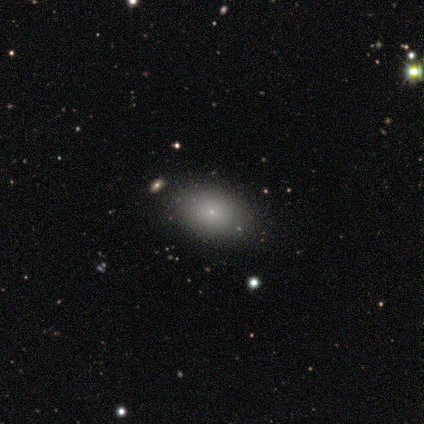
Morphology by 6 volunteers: Smooth or featured? 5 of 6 (83%) said smooth. How rounded? 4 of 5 (80%) said in between. Merging? 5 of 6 (83%) said none.